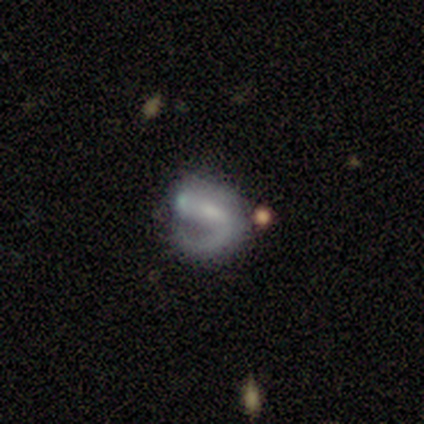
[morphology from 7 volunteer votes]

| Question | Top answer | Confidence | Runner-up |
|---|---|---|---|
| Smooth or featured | featured or disk | 57% | smooth (29%) |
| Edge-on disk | no | 100% | — |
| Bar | weak | 75% | no (25%) |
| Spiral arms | yes | 75% | no (25%) |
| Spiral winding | loose | 67% | tight (33%) |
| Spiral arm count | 1 | 100% | — |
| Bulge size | small | 100% | — |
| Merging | minor disturbance | 67% | none (17%) |